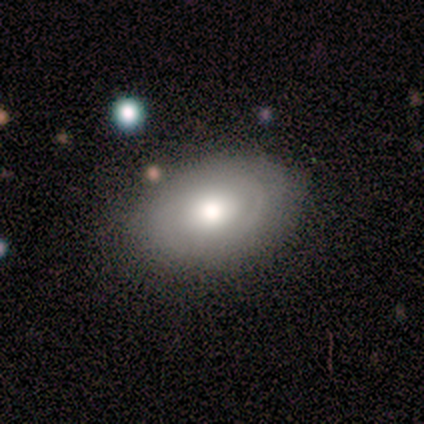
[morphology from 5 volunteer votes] Volunteers were most divided on "merging": none: 60%, minor disturbance: 40%, major disturbance: 0%, merger: 0%. More confident: smooth or featured — smooth (80%); how rounded — in between (75%).